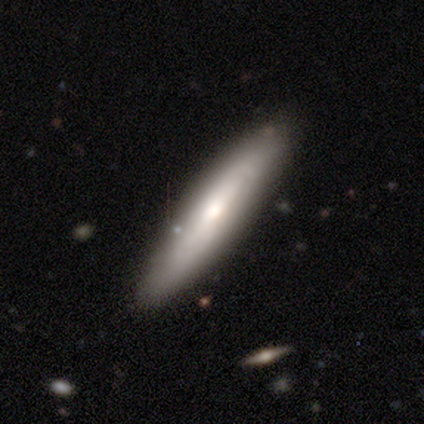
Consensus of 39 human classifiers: Q: Smooth or featured?
A: smooth (56%); runner-up: featured or disk (38%)
Q: How rounded?
A: cigar-shaped (77%); runner-up: in between (23%)
Q: Merging?
A: none (89%); runner-up: minor disturbance (11%)